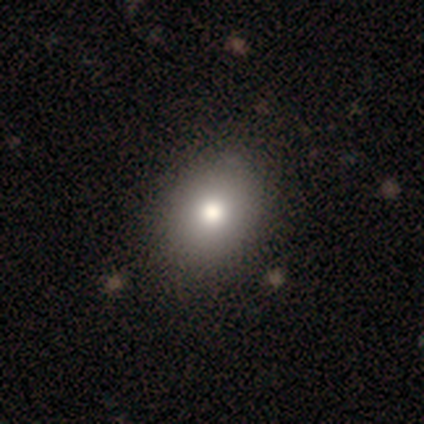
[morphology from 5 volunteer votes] Smooth or featured? 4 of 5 (80%) said smooth. How rounded? 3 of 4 (75%) said in between. Merging? 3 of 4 (75%) said none.